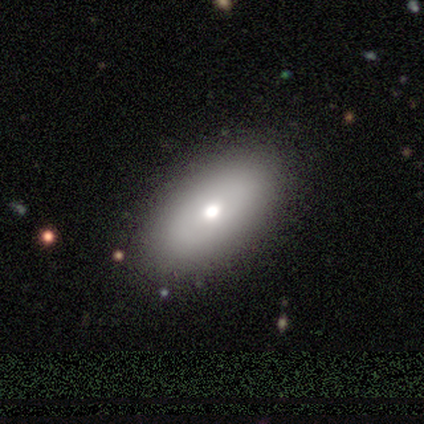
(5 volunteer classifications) A smooth galaxy with no disk features (100%) that is in between round and cigar-shaped (80%).

Vote fractions:
- Smooth or featured? smooth: 100% / featured or disk: 0% / star or artifact: 0%
- How rounded? in between: 80% / cigar-shaped: 20% / round: 0%
- Merging? none: 100% / minor disturbance: 0% / major disturbance: 0% / merger: 0%